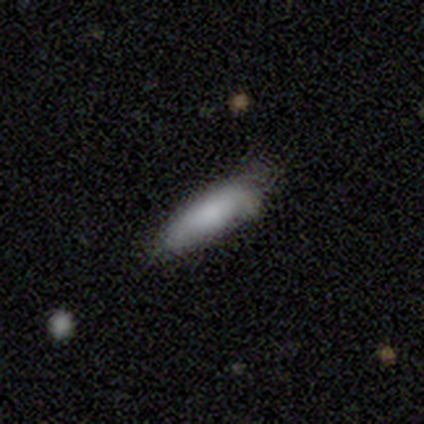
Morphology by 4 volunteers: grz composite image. It shows a smooth galaxy with no disk features (100%) that is in between round and cigar-shaped (50%, tied with cigar-shaped). Merging: none (75%).